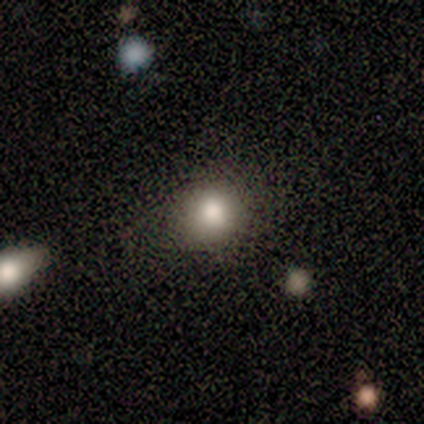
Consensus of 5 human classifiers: A smooth galaxy with no disk features (80%) that is round (75%). Merging: none (75%).